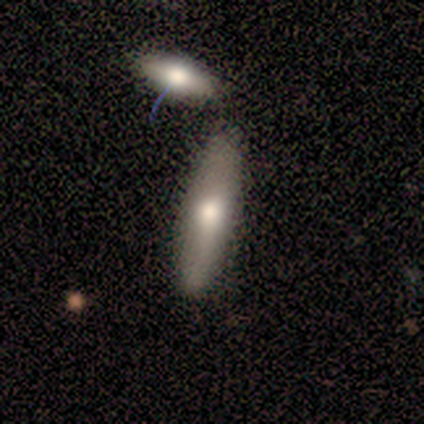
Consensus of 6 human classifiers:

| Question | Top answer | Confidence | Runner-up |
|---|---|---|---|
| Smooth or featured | smooth | 67% | featured or disk (33%) |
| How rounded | cigar-shaped | 75% | in between (25%) |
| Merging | none | 83% | merger (17%) |